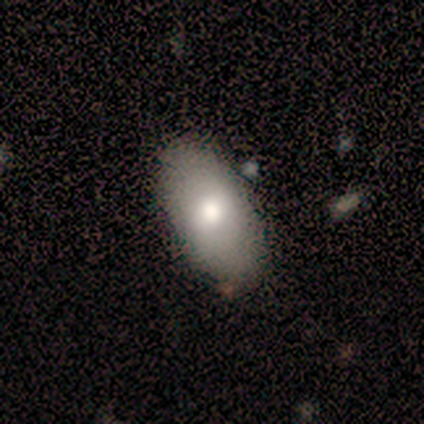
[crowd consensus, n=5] smooth 80%, featured or disk 20%, star or artifact 0%. Down the decision tree: how rounded — in between (100%); merging — none (60%).